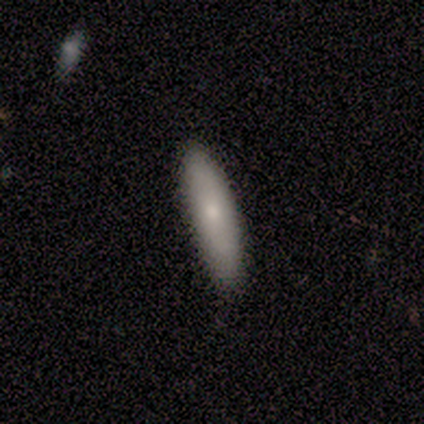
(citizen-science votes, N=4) A smooth galaxy with no disk features (50%, tied with featured or disk) that is in between round and cigar-shaped (50%, tied with cigar-shaped).

Vote fractions:
- Smooth or featured? smooth: 50% (tied) / featured or disk: 50% (tied) / star or artifact: 0%
- How rounded? in between: 50% (tied) / cigar-shaped: 50% (tied) / round: 0%
- Merging? none: 50% (tied) / minor disturbance: 50% (tied) / major disturbance: 0% / merger: 0%